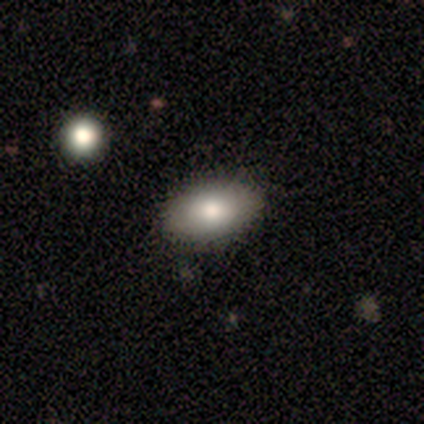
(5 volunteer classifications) Volunteers were most divided on "smooth or featured": smooth: 80%, featured or disk: 20%, star or artifact: 0%. More confident: how rounded — in between (100%); merging — none (80%).